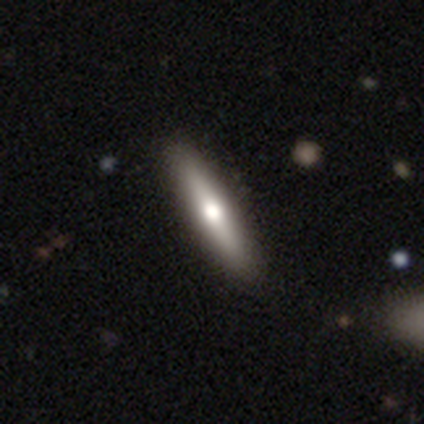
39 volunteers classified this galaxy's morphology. Smooth or featured?
  - smooth: 56% *
  - featured or disk: 44%
  - star or artifact: 0%
How rounded?
  - cigar-shaped: 77% *
  - in between: 23%
  - round: 0%
Merging?
  - none: 82% *
  - minor disturbance: 3%
  - major disturbance: 0%
  - merger: 0%